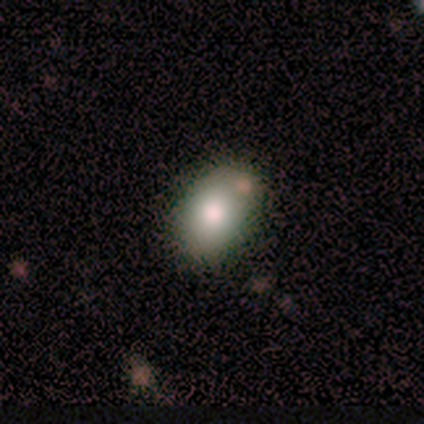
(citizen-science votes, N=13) A smooth galaxy with no disk features (100%) that is in between round and cigar-shaped (92%).

Vote fractions:
- Smooth or featured? smooth: 100% / featured or disk: 0% / star or artifact: 0%
- How rounded? in between: 92% / round: 8% / cigar-shaped: 0%
- Merging? none: 77% / merger: 15% / minor disturbance: 8% / major disturbance: 0%